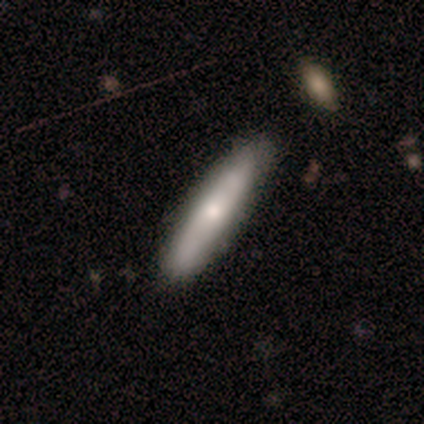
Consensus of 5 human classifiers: Smooth or featured? smooth (40%, tied with featured or disk)
How rounded? cigar-shaped (100%)
Merging? none (50%)